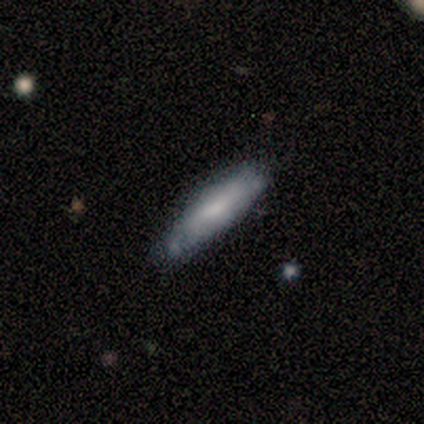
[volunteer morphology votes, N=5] Q: Smooth or featured?
A: featured or disk (80%); runner-up: smooth (20%)
Q: Edge-on disk?
A: yes (75%); runner-up: no (25%)
Q: Edge-on bulge?
A: rounded (67%); runner-up: none (33%)
Q: Merging?
A: minor disturbance (60%); runner-up: none (40%)